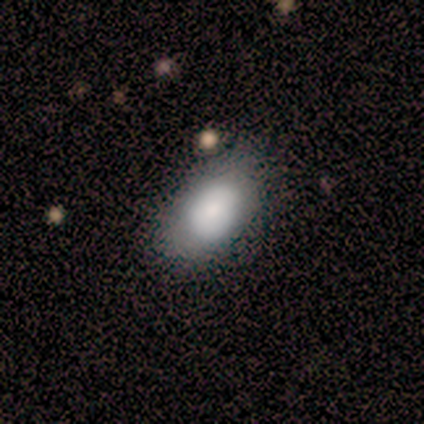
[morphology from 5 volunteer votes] Smooth or featured? smooth (100%)
How rounded? in between (100%)
Merging? none (60%)